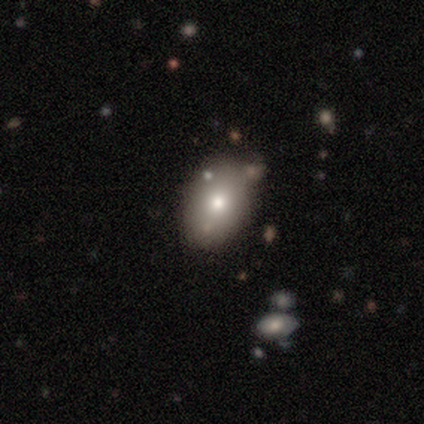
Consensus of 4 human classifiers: smooth 50% (tied), featured or disk 50% (tied), star or artifact 0%. Down the decision tree: how rounded — in between (100%); merging — minor disturbance (50%).